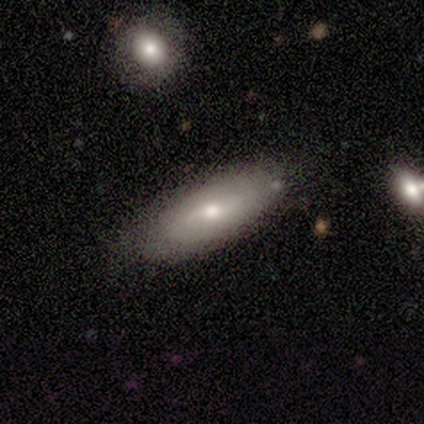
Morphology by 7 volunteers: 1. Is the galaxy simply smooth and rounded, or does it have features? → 86% smooth, 14% featured or disk, 0% star or artifact.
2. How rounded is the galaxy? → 100% in between, 0% round, 0% cigar-shaped.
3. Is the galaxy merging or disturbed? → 57% none, 29% minor disturbance, 14% major disturbance, 0% merger.